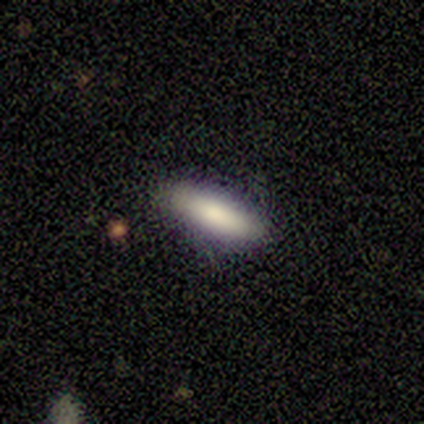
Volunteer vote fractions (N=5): smooth 80%, featured or disk 20%, star or artifact 0%. Down the decision tree: how rounded — in between (50%, tied with cigar-shaped); merging — none (60%).